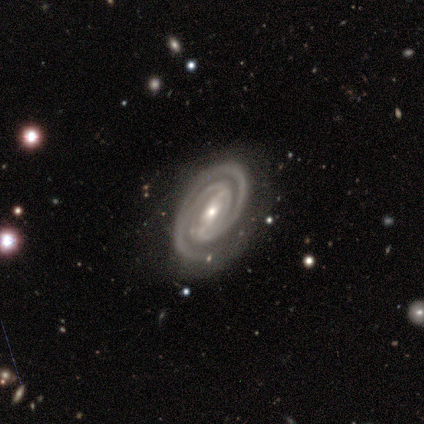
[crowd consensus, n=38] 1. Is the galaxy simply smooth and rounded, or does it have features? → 100% featured or disk, 0% smooth, 0% star or artifact.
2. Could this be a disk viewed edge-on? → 100% no, 0% yes.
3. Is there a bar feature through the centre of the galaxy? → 50% weak, 32% strong, 18% no.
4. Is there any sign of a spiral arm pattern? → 97% yes, 3% no.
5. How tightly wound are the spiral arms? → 81% tight, 14% medium, 5% loose.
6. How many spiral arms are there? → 68% 2, 16% 3, 8% can't tell, 5% 1, 3% 4, 0% more than 4.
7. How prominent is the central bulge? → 53% moderate, 45% small, 3% none, 0% dominant, 0% large.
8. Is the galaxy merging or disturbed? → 84% none, 13% minor disturbance, 3% major disturbance, 0% merger.